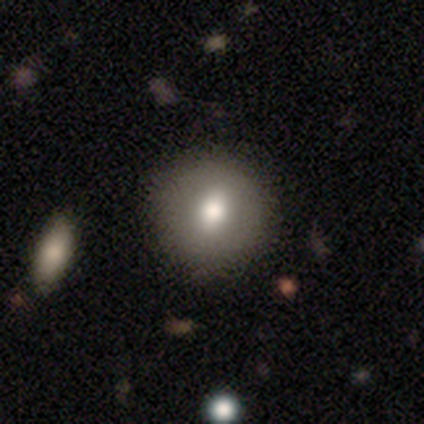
This is likely a smooth galaxy (60%). How rounded: clearly round (100%). Merging: clearly none (100%).